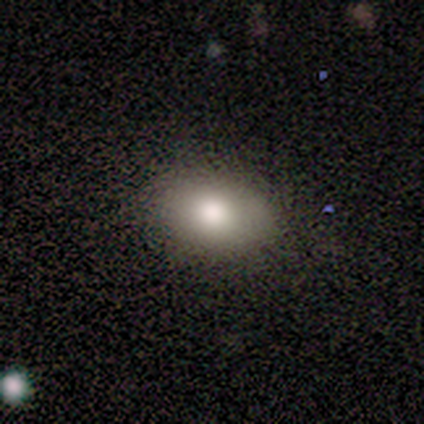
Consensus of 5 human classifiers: Smooth or featured? 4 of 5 (80%) said smooth. How rounded? 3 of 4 (75%) said in between. Merging? 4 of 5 (80%) said none.